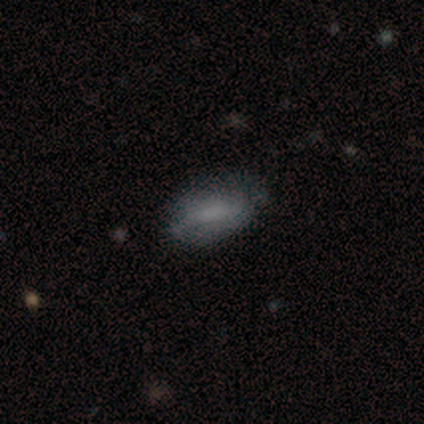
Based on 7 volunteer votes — A smooth galaxy with no disk features (86%) that is in between round and cigar-shaped (100%).

Vote fractions:
- Smooth or featured? smooth: 86% / featured or disk: 14% / star or artifact: 0%
- How rounded? in between: 100% / round: 0% / cigar-shaped: 0%
- Merging? none: 57% / minor disturbance: 29% / major disturbance: 14% / merger: 0%